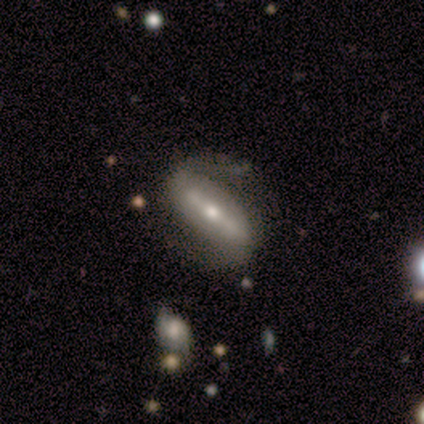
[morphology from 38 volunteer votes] Smooth or featured? featured or disk (89%)
Edge-on disk? no (82%)
Bar? strong (86%)
Spiral arms? yes (86%)
Spiral winding? medium (46%)
Spiral arm count? 2 (92%)
Bulge size? moderate (57%)
Merging? none (65%)